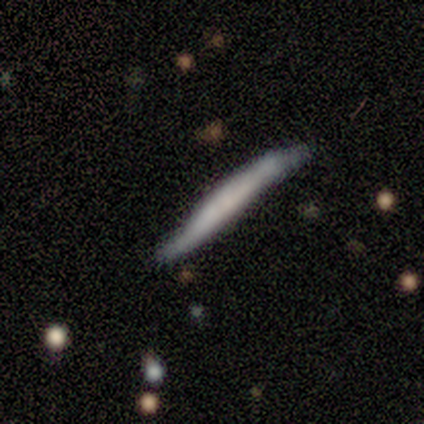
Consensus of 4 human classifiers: A smooth galaxy with no disk features (50%, tied with featured or disk) that is cigar-shaped (100%). Merging: none (75%).